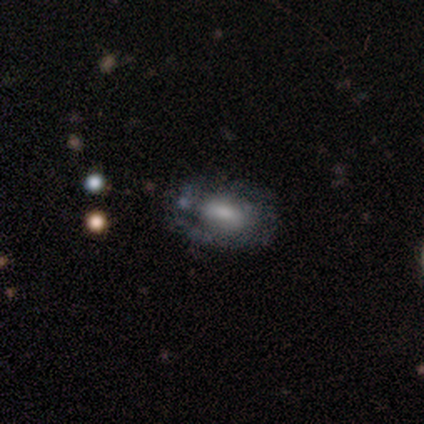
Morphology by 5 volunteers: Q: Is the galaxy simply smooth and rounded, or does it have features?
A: featured or disk — 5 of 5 (100%).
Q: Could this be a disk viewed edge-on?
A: no — 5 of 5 (100%).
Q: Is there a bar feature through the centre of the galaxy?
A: no — 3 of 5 (60%).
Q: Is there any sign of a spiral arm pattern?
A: yes — 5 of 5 (100%).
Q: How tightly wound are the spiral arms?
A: tight — 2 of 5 (40%, tied with loose).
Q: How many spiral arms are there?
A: can't tell — 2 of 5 (40%).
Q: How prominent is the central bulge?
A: moderate — 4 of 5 (80%).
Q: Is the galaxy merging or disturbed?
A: none — 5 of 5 (100%).